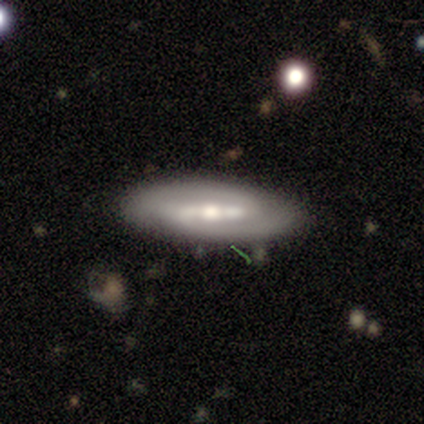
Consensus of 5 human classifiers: Smooth or featured?
  - featured or disk: 100% *
  - smooth: 0%
  - star or artifact: 0%
Edge-on disk?
  - no: 60% *
  - yes: 40%
Bar?
  - strong: 67% *
  - weak: 33%
  - no: 0%
Spiral arms?
  - yes: 100% *
  - no: 0%
Spiral winding?
  - medium: 67% *
  - tight: 33%
  - loose: 0%
Spiral arm count?
  - 2: 67% *
  - 1: 33%
  - 3: 0%
  - 4: 0%
  - more than 4: 0%
  - can't tell: 0%
Bulge size?
  - small: 67% *
  - moderate: 33%
  - dominant: 0%
  - large: 0%
  - none: 0%
Merging?
  - none: 100% *
  - minor disturbance: 0%
  - major disturbance: 0%
  - merger: 0%